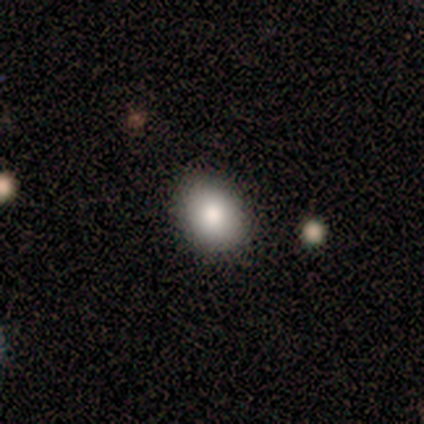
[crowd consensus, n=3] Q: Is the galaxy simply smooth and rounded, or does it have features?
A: smooth — 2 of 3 (67%).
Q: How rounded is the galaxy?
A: in between — 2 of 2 (100%).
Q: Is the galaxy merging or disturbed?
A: none — 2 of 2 (100%).